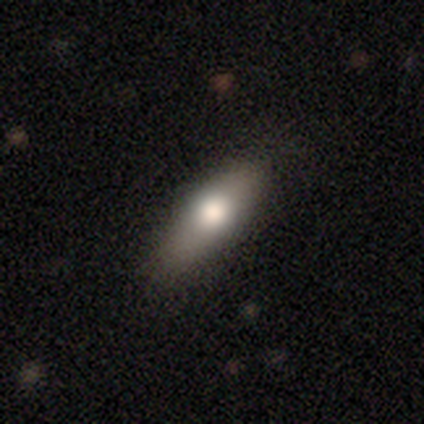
Smooth or featured?
  - smooth: 80% *
  - featured or disk: 18%
  - star or artifact: 2%
How rounded?
  - in between: 53% *
  - cigar-shaped: 44%
  - round: 3%
Merging?
  - none: 38% *
  - minor disturbance: 6%
  - major disturbance: 3%
  - merger: 3%